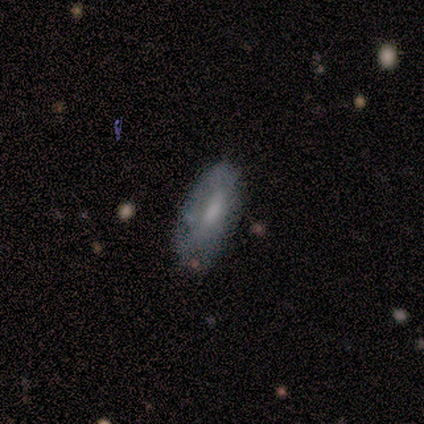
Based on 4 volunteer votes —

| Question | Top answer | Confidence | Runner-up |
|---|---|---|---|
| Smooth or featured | smooth | 75% | featured or disk (25%) |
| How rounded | in between | 100% | — |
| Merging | none | 75% | minor disturbance (25%) |